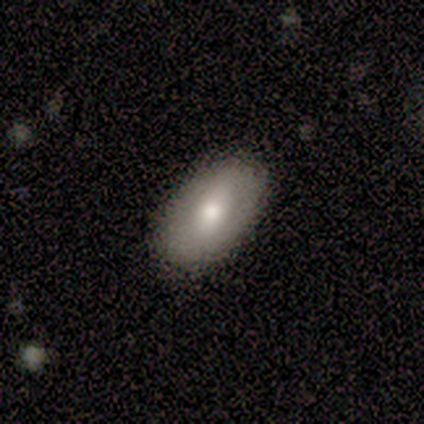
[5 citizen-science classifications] smooth 60%, featured or disk 20%, star or artifact 20%. Down the decision tree: how rounded — in between (100%); merging — none (100%).